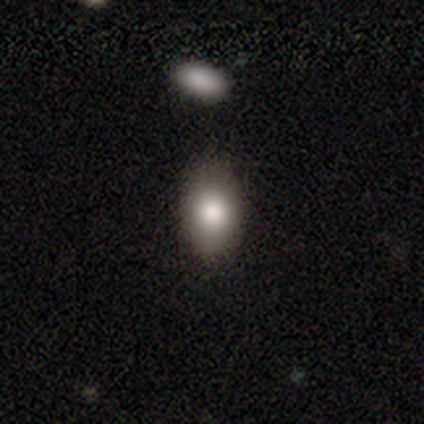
Smooth or featured?
  - smooth: 90% *
  - featured or disk: 5%
  - star or artifact: 5%
How rounded?
  - in between: 71% *
  - round: 26%
  - cigar-shaped: 3%
Merging?
  - none: 78% *
  - minor disturbance: 16%
  - major disturbance: 3%
  - merger: 3%